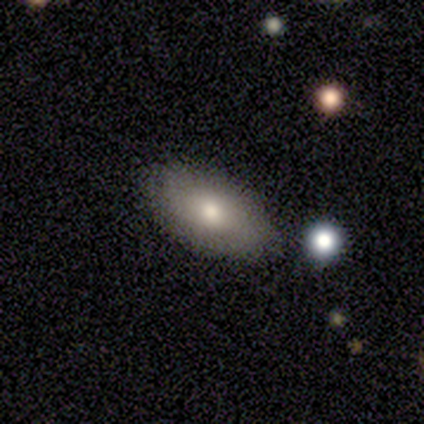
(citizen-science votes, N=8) This appears to be a smooth galaxy with no disk features (62%) that is in between round and cigar-shaped (100%). Merging: none (71%).